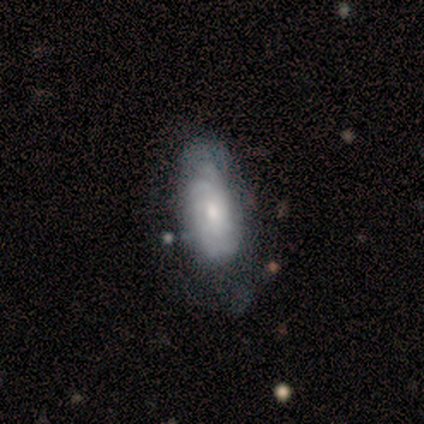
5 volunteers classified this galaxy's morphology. smooth_or_featured: featured or disk (p=0.80) [alt: smooth p=0.20]
disk_edge_on: no (p=1.00)
bar: no (p=1.00)
has_spiral_arms: yes (p=1.00)
spiral_winding: tight (p=1.00)
spiral_arm_count: can't tell (p=0.75) [alt: 2 p=0.25]
bulge_size: moderate (p=0.75) [alt: small p=0.25]
merging: none (p=0.60) [alt: major disturbance p=0.20]